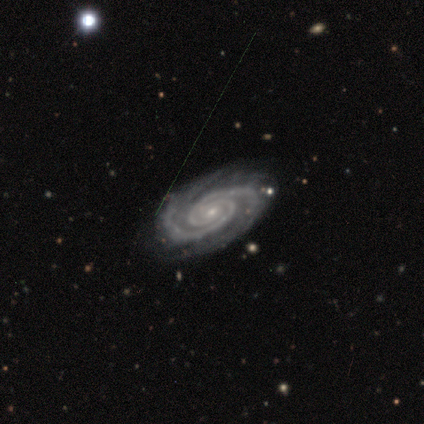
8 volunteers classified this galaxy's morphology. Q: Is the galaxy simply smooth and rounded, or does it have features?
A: featured or disk — 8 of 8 (100%).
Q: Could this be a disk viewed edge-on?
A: no — 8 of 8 (100%).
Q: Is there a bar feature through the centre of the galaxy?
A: no — 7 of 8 (88%).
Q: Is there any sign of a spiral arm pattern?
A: yes — 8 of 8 (100%).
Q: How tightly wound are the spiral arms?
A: tight — 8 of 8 (100%).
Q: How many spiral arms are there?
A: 2 — 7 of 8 (88%).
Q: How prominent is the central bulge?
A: small — 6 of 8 (75%).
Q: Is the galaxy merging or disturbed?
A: none — 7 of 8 (88%).